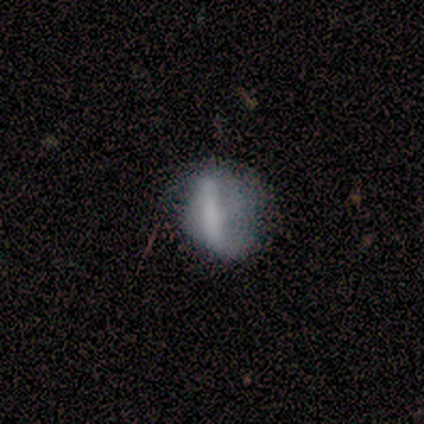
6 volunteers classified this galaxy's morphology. Smooth or featured: smooth — 83% (star or artifact — 17%)
How rounded: cigar-shaped — 60% (round — 20%)
Merging: minor disturbance — 60% (none — 40%)